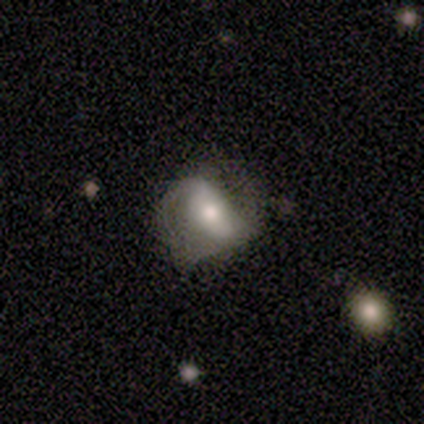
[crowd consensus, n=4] Morphology: type=featured or disk (100%); edge-on=no (100%); bar=strong (75%); spiral arms=yes (100%); winding=medium (50%, tied with loose); arm count=2 (100%); bulge=moderate (75%); merging=none (75%).